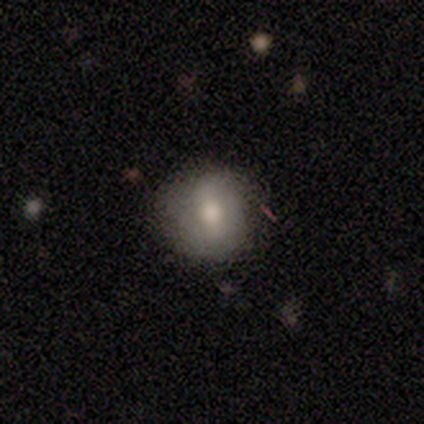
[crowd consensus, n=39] smooth 62%, featured or disk 23%, star or artifact 15%. Down the decision tree: how rounded — round (83%); merging — none (79%).